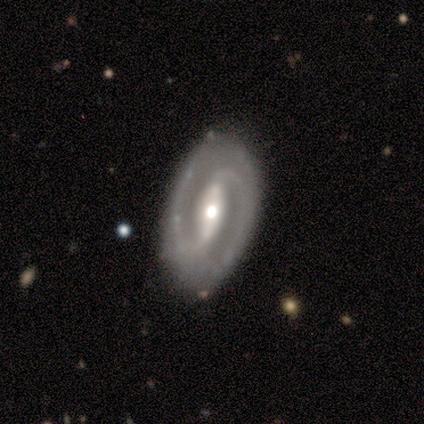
Smooth or featured? featured or disk (74%)
Edge-on disk? no (94%)
Bar? strong (79%)
Spiral arms? yes (85%)
Spiral winding? tight (46%, tied with medium)
Spiral arm count? 2 (93%)
Bulge size? moderate (61%)
Merging? none (88%)